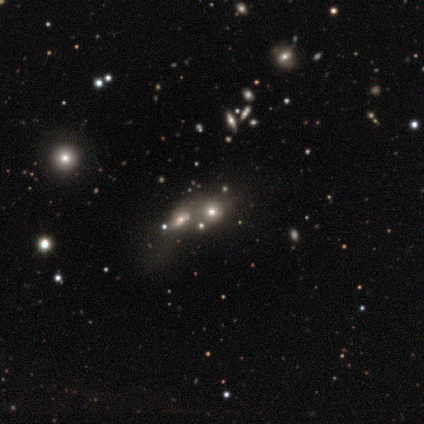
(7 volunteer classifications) Q: Smooth or featured?
A: smooth (43%); runner-up: featured or disk (29%)
Q: How rounded?
A: round (100%)
Q: Merging?
A: none (40%); tied with: merger (40%)